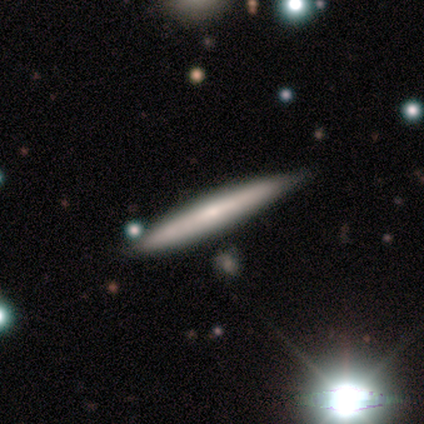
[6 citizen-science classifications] Q: Smooth or featured?
A: smooth (67%); runner-up: featured or disk (33%)
Q: How rounded?
A: cigar-shaped (100%)
Q: Merging?
A: none (83%); runner-up: minor disturbance (17%)